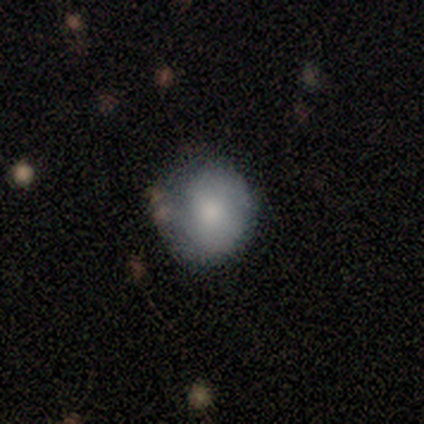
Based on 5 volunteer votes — Smooth or featured: smooth — 100%
How rounded: round — 80% (in between — 20%)
Merging: none — 100%